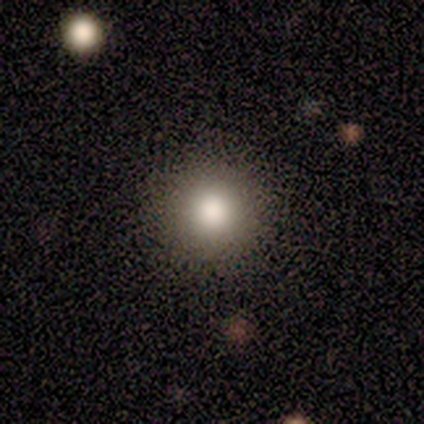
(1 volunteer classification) Smooth or featured?
  - smooth: 100% *
  - featured or disk: 0%
  - star or artifact: 0%
How rounded?
  - round: 100% *
  - in between: 0%
  - cigar-shaped: 0%
Merging?
  - none: 100% *
  - minor disturbance: 0%
  - major disturbance: 0%
  - merger: 0%